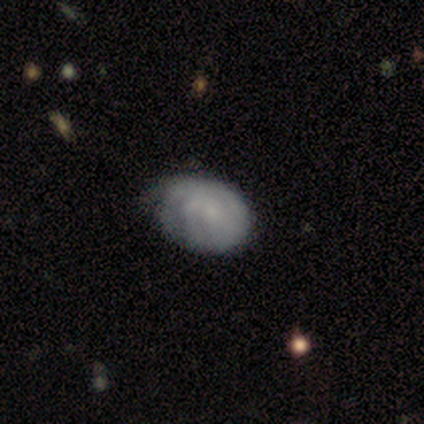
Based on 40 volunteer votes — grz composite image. It shows a featured or disk galaxy (52%) with no bar (81%), tight (67%) spiral arms (57%) and a small central bulge (67%). Merging: none (25%).